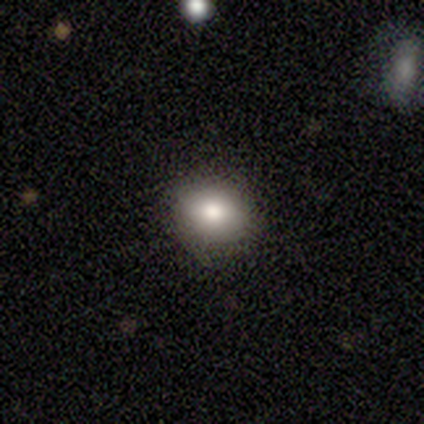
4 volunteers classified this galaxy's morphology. Volunteers were most divided on "how rounded": in between: 75%, round: 25%, cigar-shaped: 0%. More confident: smooth or featured — smooth (100%); merging — none (100%).